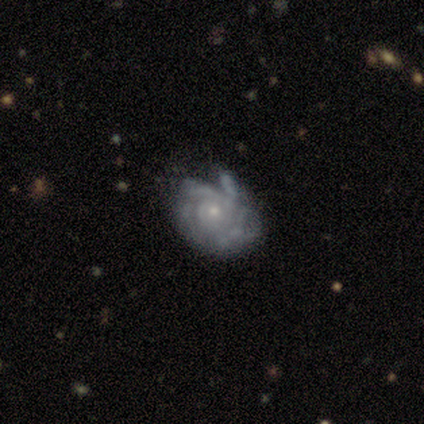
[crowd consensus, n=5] featured or disk 80%, smooth 20%, star or artifact 0%. Down the decision tree: edge-on disk — no (100%); bar — no (100%); spiral arms — yes (75%); spiral arm count — 3 (33%, tied with 4 and can't tell); spiral winding — tight (67%); bulge size — small (100%); merging — none (60%).